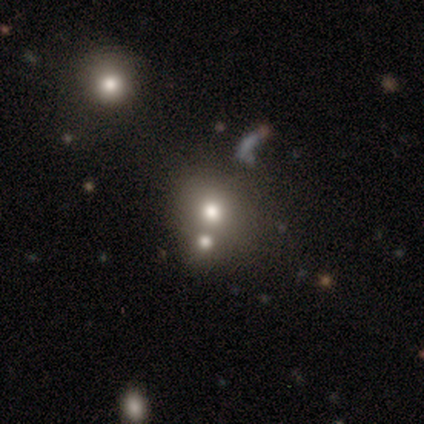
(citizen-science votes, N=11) A smooth galaxy with no disk features (82%) that is round (67%). Merging: none (55%).